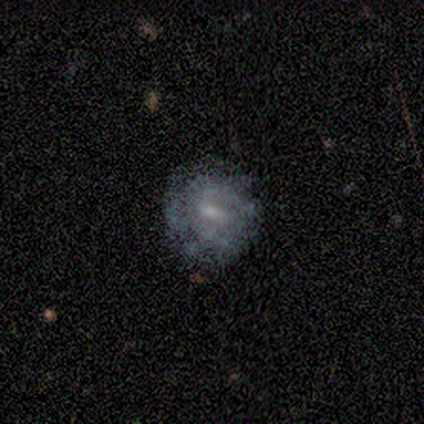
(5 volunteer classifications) featured or disk 60%, smooth 40%, star or artifact 0%. Down the decision tree: edge-on disk — no (100%); bar — no (67%); spiral arms — no (67%); bulge size — moderate (33%, tied with small and none); merging — none (100%).